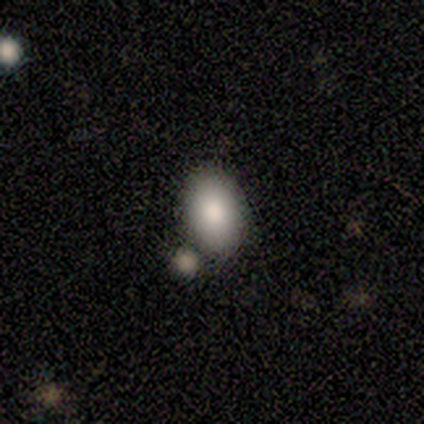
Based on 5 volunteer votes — Smooth or featured?
  - smooth: 80% *
  - star or artifact: 20%
  - featured or disk: 0%
How rounded?
  - in between: 100% *
  - round: 0%
  - cigar-shaped: 0%
Merging?
  - merger: 50% *
  - none: 25%
  - minor disturbance: 25%
  - major disturbance: 0%